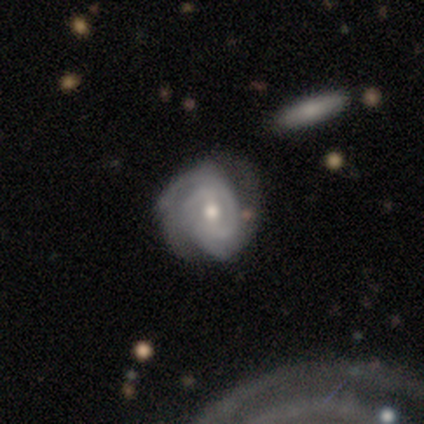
Smooth or featured? featured or disk (82%)
Edge-on disk? no (95%)
Bar? weak (49%)
Spiral arms? yes (97%)
Spiral winding? tight (70%)
Spiral arm count? 2 (59%)
Bulge size? moderate (67%)
Merging? none (67%)